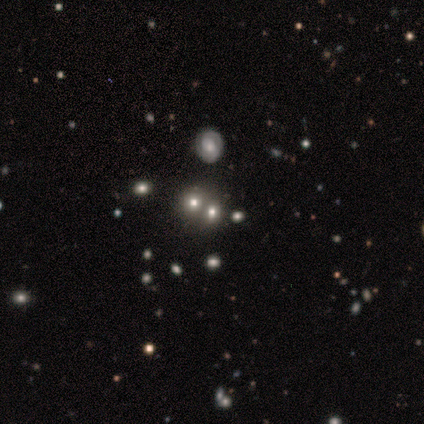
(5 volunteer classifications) Q: Smooth or featured?
A: star or artifact (60%); runner-up: smooth (40%)